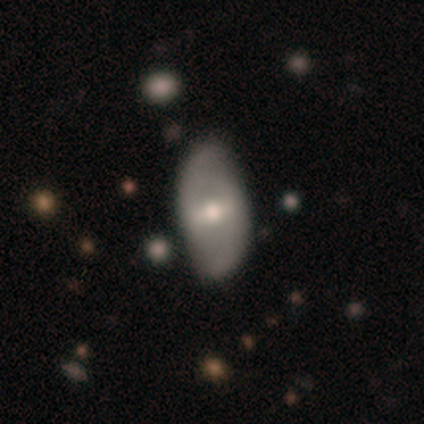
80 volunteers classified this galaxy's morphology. Volunteers were most divided on "spiral winding": medium: 41%, loose: 33%, tight: 26%. Remaining: spiral arm count — 2 (96%); edge-on disk — no (95%); bulge size — moderate (81%); spiral arms — yes (64%); smooth or featured — featured or disk (55%); bar — strong (52%); merging — none (41%).